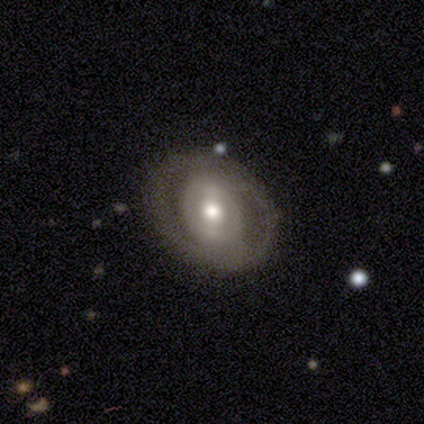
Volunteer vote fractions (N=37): Smooth or featured: featured or disk — 70% (smooth — 19%)
Edge-on disk: no — 92% (yes — 8%)
Bar: strong — 38% (weak — 33%)
Spiral arms: no — 71% (yes — 29%)
Bulge size: moderate — 50% (large — 25%)
Merging: none — 85% (minor disturbance — 12%)